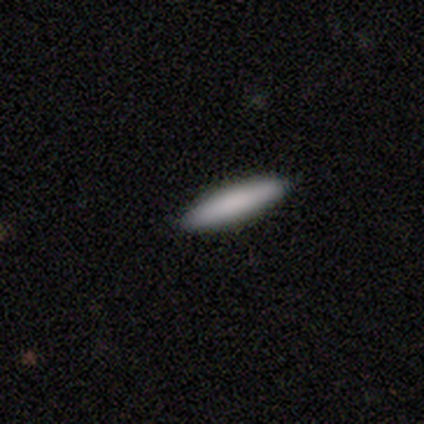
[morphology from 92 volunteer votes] Volunteers were most divided on "smooth or featured": smooth: 80%, star or artifact: 12%, featured or disk: 8%. More confident: how rounded — cigar-shaped (88%); merging — none (88%).